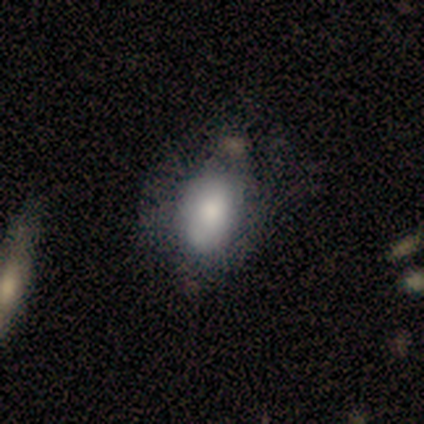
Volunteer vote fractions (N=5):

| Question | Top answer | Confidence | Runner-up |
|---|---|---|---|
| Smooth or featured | smooth | 80% | featured or disk (20%) |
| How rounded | in between | 100% | — |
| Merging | none | 40% | minor disturbance (20%) |